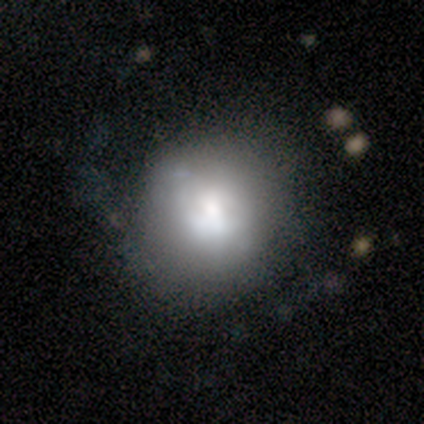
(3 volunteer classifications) Q: Smooth or featured?
A: smooth (67%); runner-up: featured or disk (33%)
Q: How rounded?
A: round (50%); tied with: in between (50%)
Q: Merging?
A: none (100%)